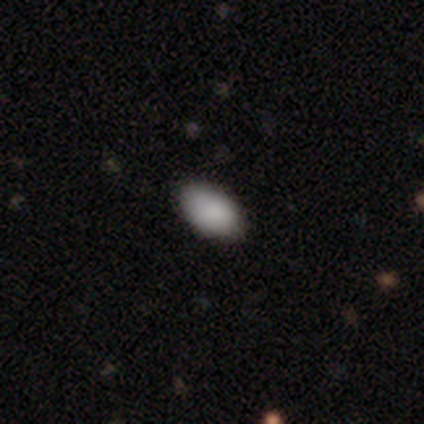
Volunteers were most divided on "merging": none: 75%, minor disturbance: 25%, major disturbance: 0%, merger: 0%. More confident: how rounded — in between (100%); smooth or featured — smooth (80%).